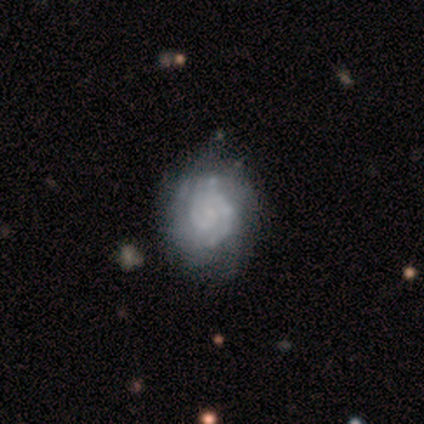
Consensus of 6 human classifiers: Smooth or featured? 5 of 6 (83%) said featured or disk. Edge-on disk? 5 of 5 (100%) said no. Bar? 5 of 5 (100%) said no. Spiral arms? 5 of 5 (100%) said yes. Spiral winding? 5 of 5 (100%) said tight. Spiral arm count? 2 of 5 (40%, tied with 2) said 1. Bulge size? 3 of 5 (60%) said none. Merging? 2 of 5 (40%, tied with major disturbance) said minor disturbance.